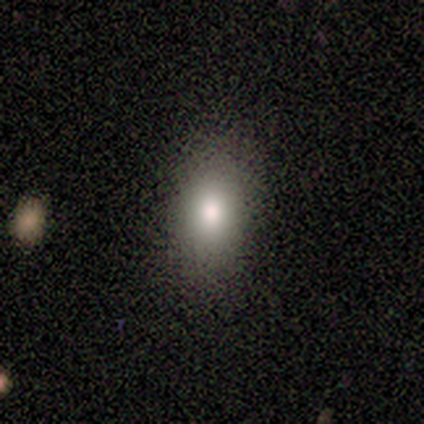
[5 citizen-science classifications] Smooth or featured? 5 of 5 (100%) said smooth. How rounded? 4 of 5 (80%) said in between. Merging? 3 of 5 (60%) said none.